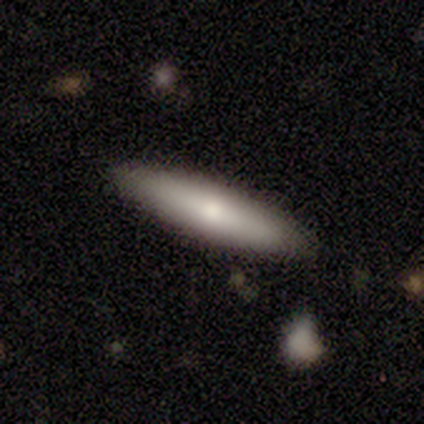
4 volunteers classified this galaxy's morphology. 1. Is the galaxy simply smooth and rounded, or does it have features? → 50% smooth (tied), 50% featured or disk (tied), 0% star or artifact.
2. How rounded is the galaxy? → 100% cigar-shaped, 0% round, 0% in between.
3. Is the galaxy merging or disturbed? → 100% none, 0% minor disturbance, 0% major disturbance, 0% merger.